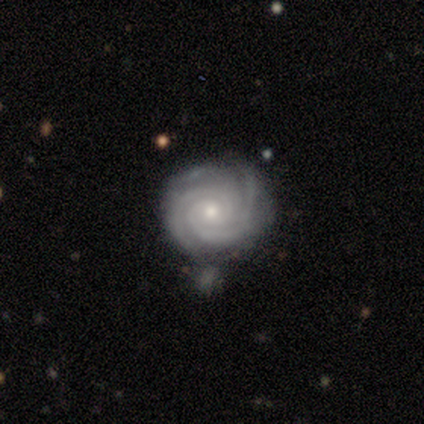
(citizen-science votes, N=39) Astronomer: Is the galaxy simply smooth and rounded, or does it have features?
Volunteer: featured or disk — 90%.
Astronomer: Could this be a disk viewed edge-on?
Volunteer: no — 100%.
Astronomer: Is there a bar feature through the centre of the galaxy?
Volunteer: no — 80%.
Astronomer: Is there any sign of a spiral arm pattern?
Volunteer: yes — 100%.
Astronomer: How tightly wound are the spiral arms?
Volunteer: tight — 86%.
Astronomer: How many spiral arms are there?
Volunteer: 2 — 46% (runner-up: 3, 37%).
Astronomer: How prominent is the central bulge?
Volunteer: small — 51% (runner-up: moderate, 46%).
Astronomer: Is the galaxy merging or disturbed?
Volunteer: none — 57% (runner-up: minor disturbance, 32%).